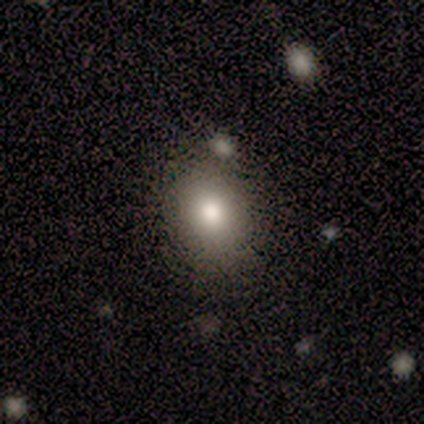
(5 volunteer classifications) This is likely a smooth galaxy (60%). How rounded: likely in between (67%). Merging: likely none (67%).